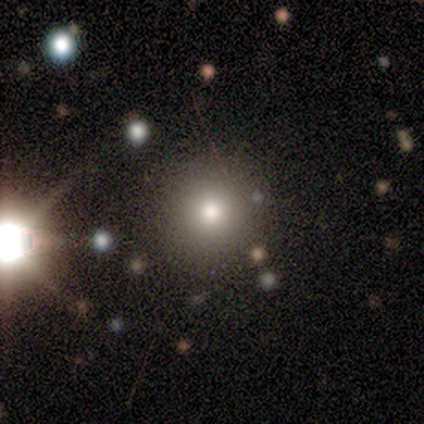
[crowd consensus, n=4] Morphology: type=smooth (100%); roundness=round (75%); merging=none (50%).